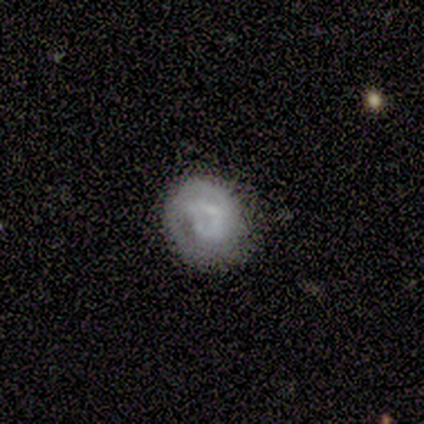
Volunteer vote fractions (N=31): This is likely a smooth galaxy (65%). How rounded: likely round (70%). Merging: possibly none (55%).